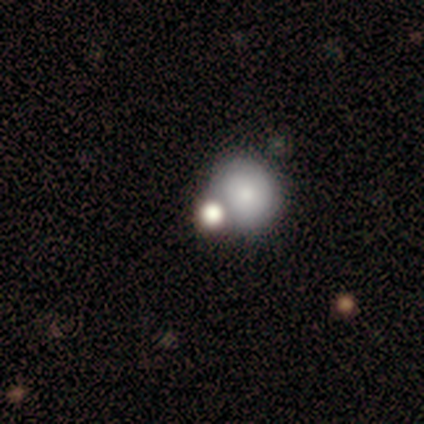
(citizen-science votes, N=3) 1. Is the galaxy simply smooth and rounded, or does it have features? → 67% smooth, 33% star or artifact, 0% featured or disk.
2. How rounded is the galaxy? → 100% round, 0% in between, 0% cigar-shaped.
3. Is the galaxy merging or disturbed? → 50% none (tied), 50% major disturbance (tied), 0% minor disturbance, 0% merger.